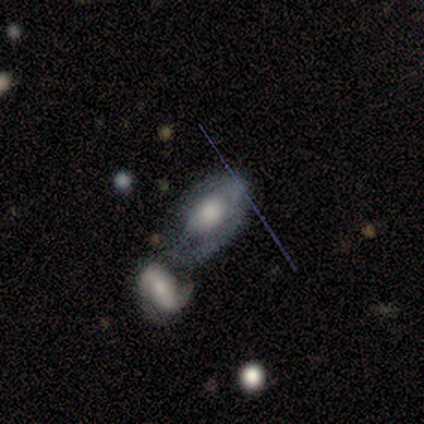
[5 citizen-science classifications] This appears to be a featured or disk galaxy (100%) with no bar (80%), no spiral arms (80%) and a large central bulge (60%). Merging: minor disturbance (40%, tied with merger).